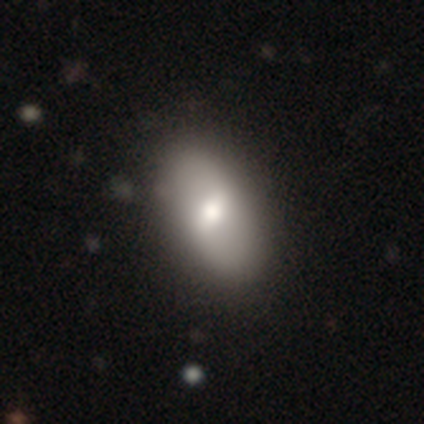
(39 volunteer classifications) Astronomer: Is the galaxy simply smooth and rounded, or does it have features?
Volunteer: smooth — 54% (runner-up: featured or disk, 46%).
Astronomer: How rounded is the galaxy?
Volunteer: in between — 86%.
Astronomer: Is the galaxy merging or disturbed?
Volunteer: none — 64%.